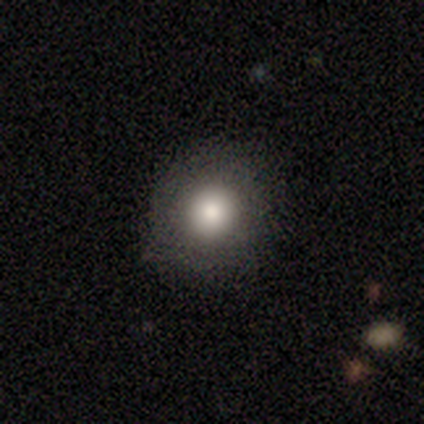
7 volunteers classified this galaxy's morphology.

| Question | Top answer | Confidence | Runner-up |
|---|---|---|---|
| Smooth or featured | smooth | 71% | featured or disk (14%) |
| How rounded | round | 100% | — |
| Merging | none | 83% | minor disturbance (17%) |